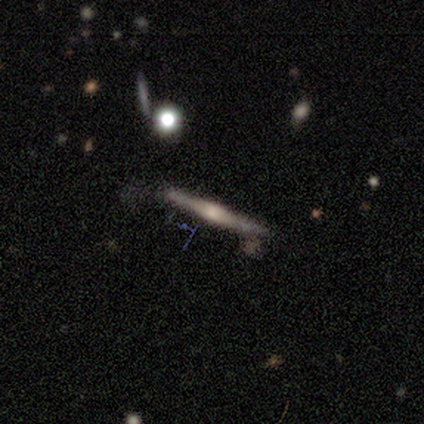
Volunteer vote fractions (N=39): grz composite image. It shows a featured or disk galaxy (77%) viewed edge-on (100%) with a rounded central bulge (73%). Merging: none (67%).